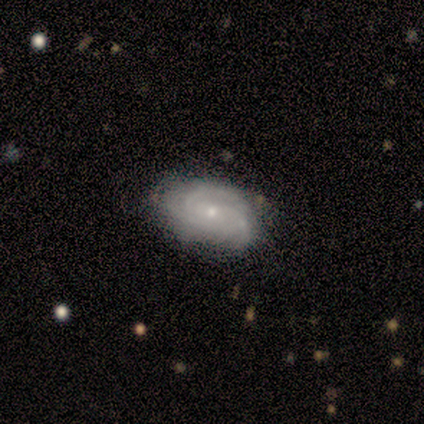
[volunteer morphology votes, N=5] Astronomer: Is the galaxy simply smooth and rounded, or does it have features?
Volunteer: featured or disk — 80%.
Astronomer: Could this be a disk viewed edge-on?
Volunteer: no — 100%.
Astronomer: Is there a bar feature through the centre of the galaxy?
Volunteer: no — 50%.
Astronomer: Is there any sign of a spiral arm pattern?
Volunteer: yes — 100%.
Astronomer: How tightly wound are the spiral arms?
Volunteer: tight — 100%.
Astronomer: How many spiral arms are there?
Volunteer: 3 — 75%.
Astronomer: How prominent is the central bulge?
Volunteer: small — 100%.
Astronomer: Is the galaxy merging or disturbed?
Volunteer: none — 100%.